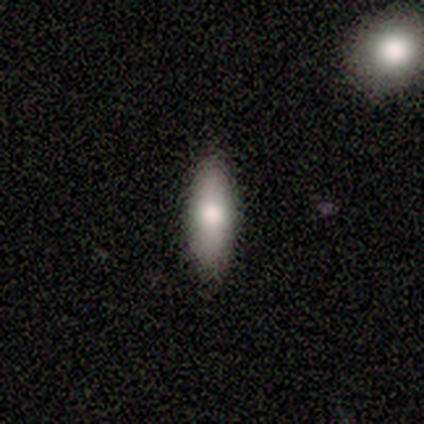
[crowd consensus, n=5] smooth_or_featured: smooth (p=1.00)
how_rounded: in between (p=0.80) [alt: cigar-shaped p=0.20]
merging: none (p=0.80) [alt: minor disturbance p=0.20]